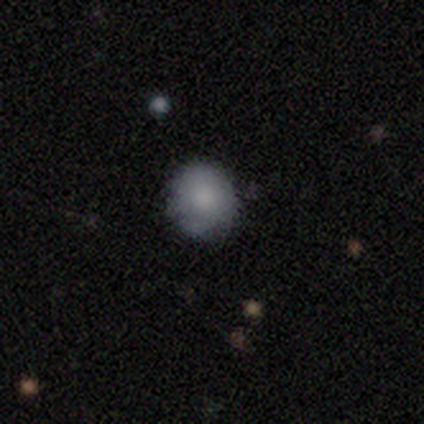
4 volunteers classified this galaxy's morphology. smooth_or_featured: smooth (p=1.00)
how_rounded: round (p=0.75) [alt: cigar-shaped p=0.25]
merging: none (p=0.75) [alt: minor disturbance p=0.25]